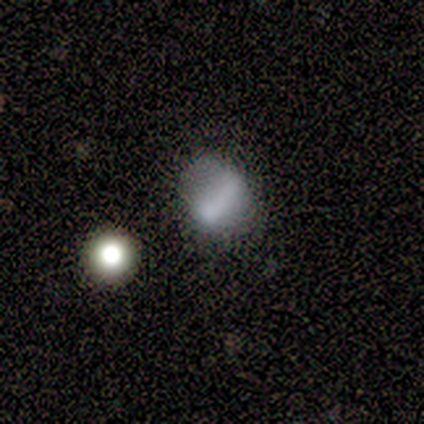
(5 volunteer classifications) smooth_or_featured: featured or disk (p=0.60) [alt: smooth p=0.40]
disk_edge_on: no (p=1.00)
bar: weak (p=1.00)
has_spiral_arms: no (p=1.00)
bulge_size: none (p=1.00)
merging: minor disturbance (p=0.40) [tied with: major disturbance p=0.40]